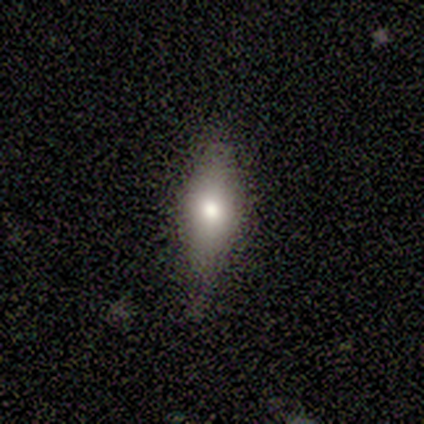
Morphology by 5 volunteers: Smooth or featured: smooth — 80% (star or artifact — 20%)
How rounded: in between — 75% (cigar-shaped — 25%)
Merging: none — 50% (tied with minor disturbance — 50%)